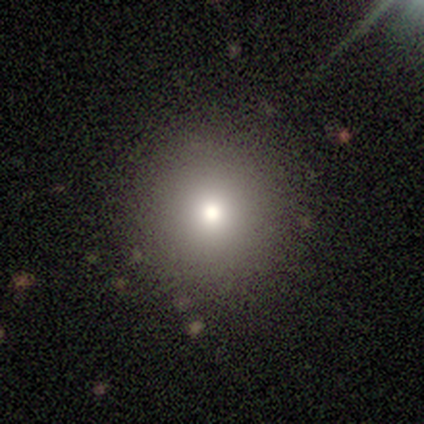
A smooth galaxy with no disk features (80%) that is round (94%). Merging: none (91%).